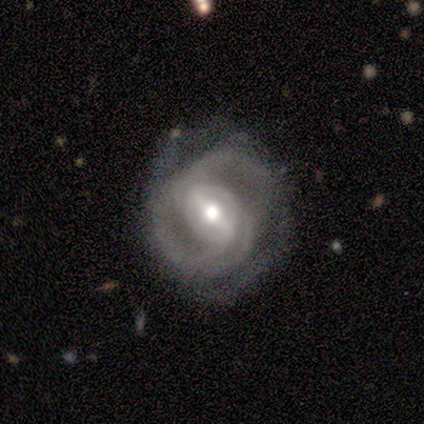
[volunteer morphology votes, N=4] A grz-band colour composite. It shows a featured or disk galaxy (50%) with a strong bar (50%, tied with no), 2 (100%) tight (50%, tied with medium) spiral arms (100%) and a large central bulge (50%, tied with small). Merging: minor disturbance (67%).